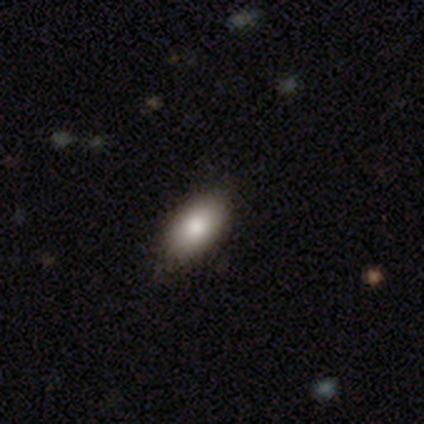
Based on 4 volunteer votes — Volunteers were most divided on "smooth or featured": smooth: 75%, featured or disk: 25%, star or artifact: 0%. More confident: how rounded — in between (100%); merging — none (100%).